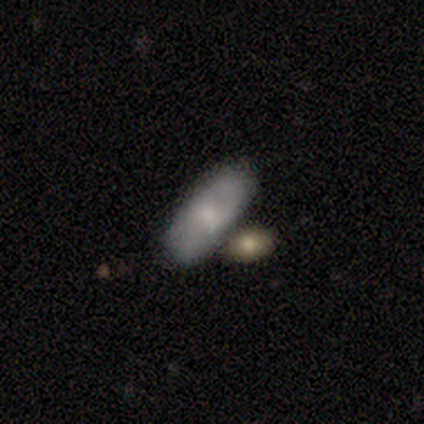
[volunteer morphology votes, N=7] smooth 71%, featured or disk 29%, star or artifact 0%. Down the decision tree: how rounded — in between (100%); merging — none (86%).